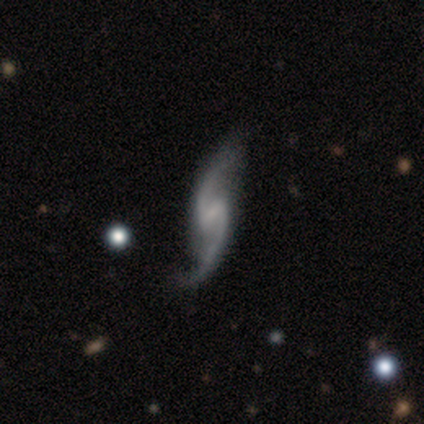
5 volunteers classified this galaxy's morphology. type=featured or disk (100%); edge-on=no (80%); bar=strong (50%); spiral arms=yes (100%); winding=loose (75%); arm count=2 (100%); bulge=none (75%); merging=none (80%).